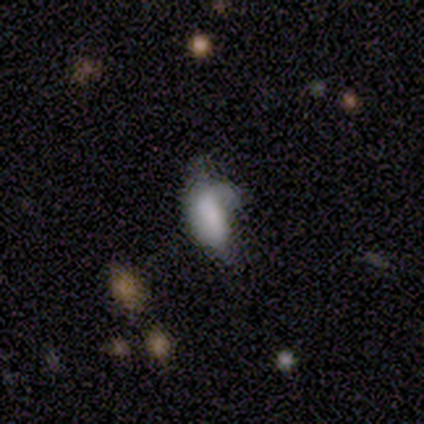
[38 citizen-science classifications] Smooth or featured? smooth (74%)
How rounded? in between (79%)
Merging? minor disturbance (47%)